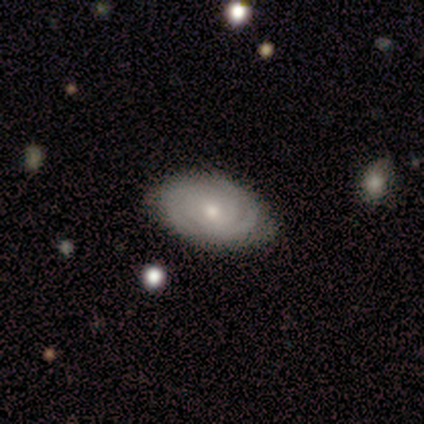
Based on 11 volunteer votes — smooth-or-featured: featured or disk: 91% | star or artifact: 9% | smooth: 0%
  disk-edge-on: no: 100% | yes: 0%
    bar: no: 70% | weak: 20% | strong: 10%
    has-spiral-arms: yes: 90% | no: 10%
      spiral-winding: tight: 67% | medium: 22% | loose: 11%
      spiral-arm-count: can't tell: 44% | 2: 33% | 3: 22% | 1: 0% | 4: 0% | more than 4: 0%
    bulge-size: moderate: 50% (tied) | small: 50% (tied) | dominant: 0% | large: 0% | none: 0%
  merging: none: 90% | minor disturbance: 10% | major disturbance: 0% | merger: 0%